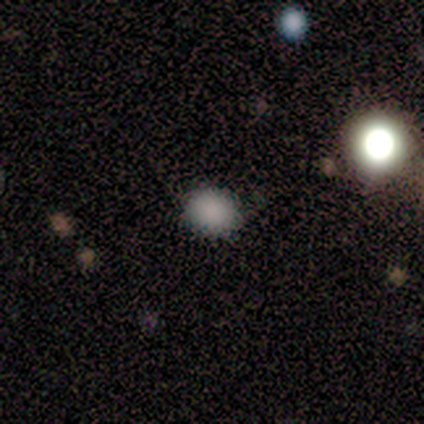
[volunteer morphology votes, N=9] Volunteers were most divided on "how rounded": round: 56%, in between: 44%, cigar-shaped: 0%. More confident: smooth or featured — smooth (100%); merging — none (89%).